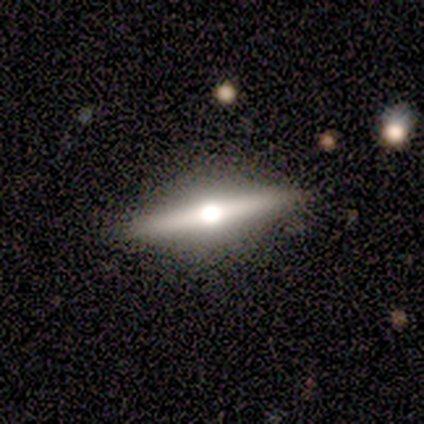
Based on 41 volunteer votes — A featured or disk galaxy (80%) viewed edge-on (100%) with a rounded central bulge (97%). Merging: none (95%).